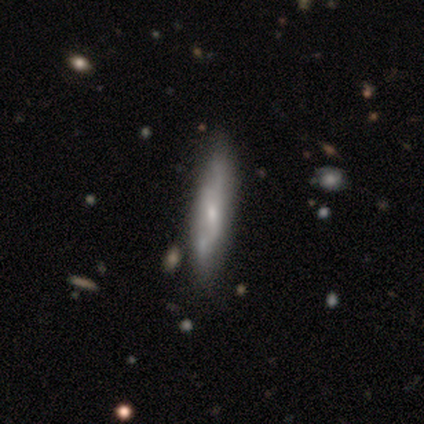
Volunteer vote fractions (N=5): Smooth or featured?
  - smooth: 60% *
  - featured or disk: 40%
  - star or artifact: 0%
How rounded?
  - cigar-shaped: 100% *
  - round: 0%
  - in between: 0%
Merging?
  - none: 60% *
  - minor disturbance: 40%
  - major disturbance: 0%
  - merger: 0%